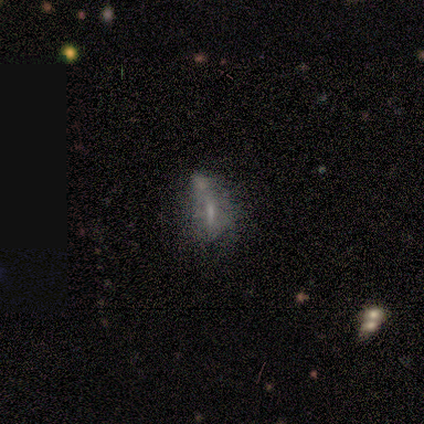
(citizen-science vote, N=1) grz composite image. It shows a featured or disk galaxy (100%) with no bar (100%), no spiral arms (100%) and a small central bulge (100%). Merging: merger (100%).